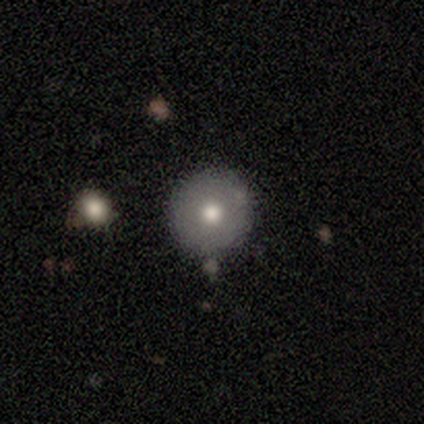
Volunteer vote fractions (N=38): Morphology: type=smooth (63%); roundness=round (100%); merging=none (85%).